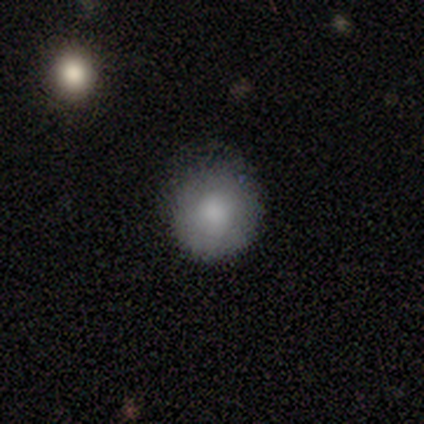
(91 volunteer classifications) Smooth or featured? 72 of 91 (79%) said smooth. How rounded? 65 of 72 (90%) said round. Merging? 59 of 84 (70%) said none.